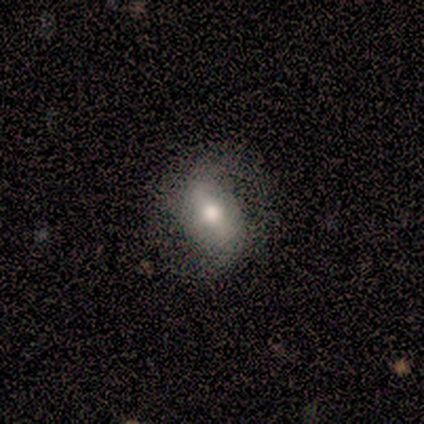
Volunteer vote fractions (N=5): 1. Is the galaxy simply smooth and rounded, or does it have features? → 100% featured or disk, 0% smooth, 0% star or artifact.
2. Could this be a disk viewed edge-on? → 80% no, 20% yes.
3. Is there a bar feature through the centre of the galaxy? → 50% weak, 25% strong, 25% no.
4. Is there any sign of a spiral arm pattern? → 100% yes, 0% no.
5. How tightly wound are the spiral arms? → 50% loose, 25% tight, 25% medium.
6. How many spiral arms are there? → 100% 2, 0% 1, 0% 3, 0% 4, 0% more than 4, 0% can't tell.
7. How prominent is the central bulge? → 75% moderate, 25% small, 0% dominant, 0% large, 0% none.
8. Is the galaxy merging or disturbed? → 80% none, 20% minor disturbance, 0% major disturbance, 0% merger.